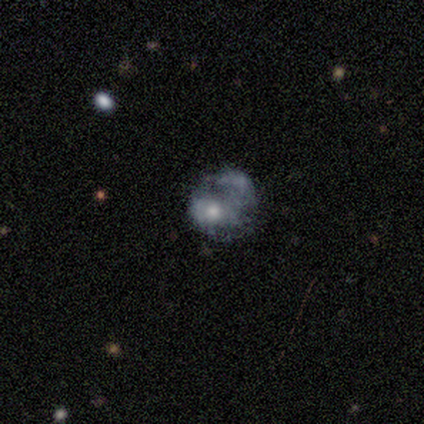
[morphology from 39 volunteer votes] A featured or disk galaxy (51%) with no bar (100%), no spiral arms (95%) and a moderate central bulge (58%).

Vote fractions:
- Smooth or featured? featured or disk: 51% / smooth: 38% / star or artifact: 10%
- Edge-on disk? no: 95% / yes: 5%
- Bar? no: 100% / strong: 0% / weak: 0%
- Spiral arms? no: 95% / yes: 5%
- Bulge size? moderate: 58% / small: 21% / large: 11% / dominant: 5% / none: 5%
- Merging? major disturbance: 40% / minor disturbance: 26% / merger: 20% / none: 14%